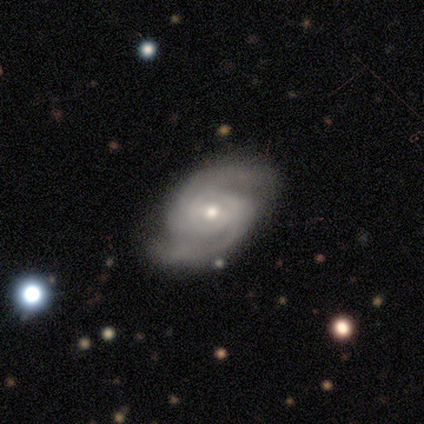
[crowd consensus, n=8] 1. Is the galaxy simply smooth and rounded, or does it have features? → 75% featured or disk, 12% smooth, 12% star or artifact.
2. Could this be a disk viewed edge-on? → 100% no, 0% yes.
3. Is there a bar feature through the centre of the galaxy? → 50% strong, 33% no, 17% weak.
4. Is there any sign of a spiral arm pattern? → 100% yes, 0% no.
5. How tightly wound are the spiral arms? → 50% medium, 33% tight, 17% loose.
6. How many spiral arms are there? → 83% 2, 17% 4, 0% 1, 0% 3, 0% more than 4, 0% can't tell.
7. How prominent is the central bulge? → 67% small, 33% moderate, 0% dominant, 0% large, 0% none.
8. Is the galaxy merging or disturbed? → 86% none, 14% minor disturbance, 0% major disturbance, 0% merger.